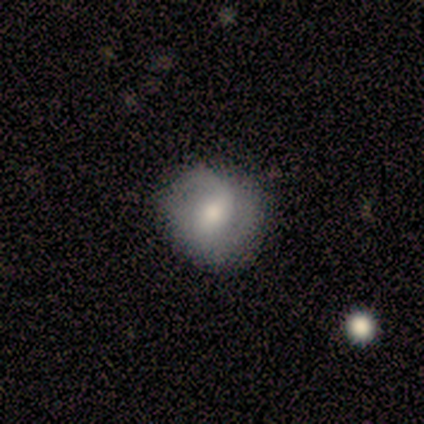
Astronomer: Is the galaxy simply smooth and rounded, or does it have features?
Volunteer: featured or disk — 67%.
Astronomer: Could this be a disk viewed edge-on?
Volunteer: no — 100%.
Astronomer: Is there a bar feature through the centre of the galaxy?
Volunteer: no — 75%.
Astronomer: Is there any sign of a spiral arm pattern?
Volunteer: yes — 75%.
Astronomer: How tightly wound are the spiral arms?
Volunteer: medium — 67%.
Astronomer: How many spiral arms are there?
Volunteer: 1 — 33%, tied with 2 and can't tell at 33%.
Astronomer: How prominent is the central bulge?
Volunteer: moderate — 50%, tied with small at 50%.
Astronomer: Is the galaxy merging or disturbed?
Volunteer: none — 67%.